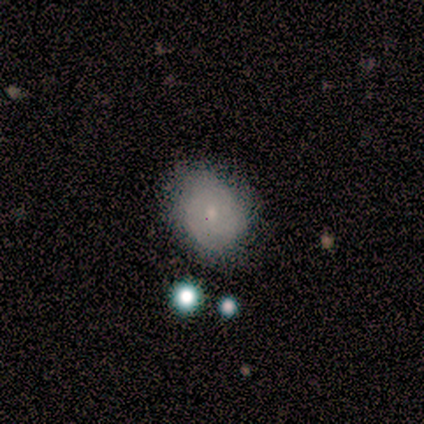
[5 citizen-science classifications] Smooth or featured?
  - smooth: 100% *
  - featured or disk: 0%
  - star or artifact: 0%
How rounded?
  - round: 60% *
  - in between: 40%
  - cigar-shaped: 0%
Merging?
  - none: 100% *
  - minor disturbance: 0%
  - major disturbance: 0%
  - merger: 0%